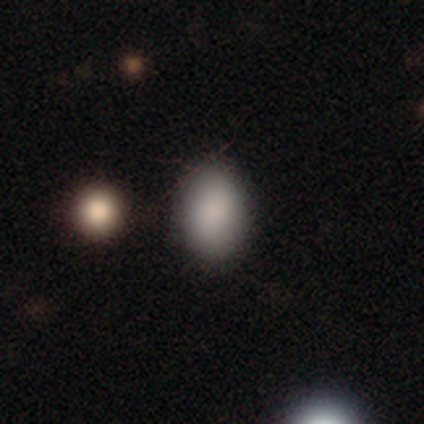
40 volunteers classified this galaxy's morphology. smooth_or_featured: smooth (p=0.93) [alt: featured or disk p=0.05]
how_rounded: in between (p=0.84) [alt: round p=0.16]
merging: none (p=0.79) [alt: minor disturbance p=0.15]